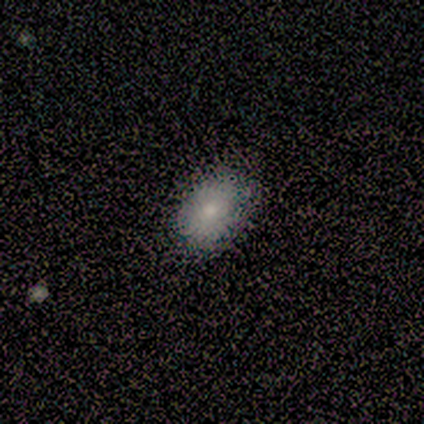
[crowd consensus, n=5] Q: Smooth or featured?
A: smooth (100%)
Q: How rounded?
A: in between (80%); runner-up: round (20%)
Q: Merging?
A: none (60%); runner-up: minor disturbance (40%)